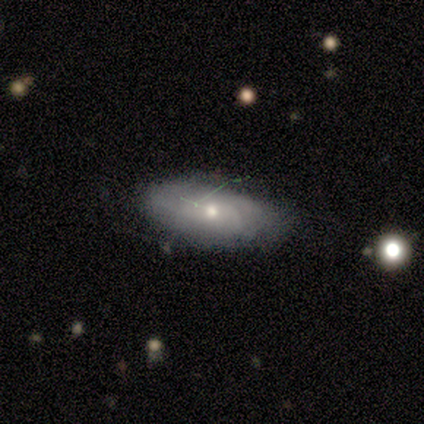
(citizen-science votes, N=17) Morphology: type=smooth (53%); roundness=in between (78%); merging=none (87%).